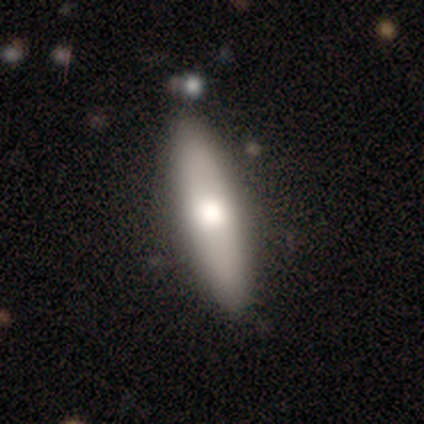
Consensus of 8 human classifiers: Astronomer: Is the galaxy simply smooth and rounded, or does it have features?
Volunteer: smooth — 75%.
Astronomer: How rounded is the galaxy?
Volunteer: cigar-shaped — 83%.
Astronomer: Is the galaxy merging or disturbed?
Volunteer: none — 86%.